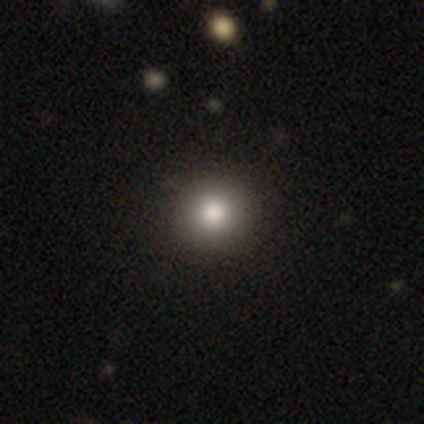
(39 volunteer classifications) Smooth or featured? 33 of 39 (85%) said smooth. How rounded? 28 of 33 (85%) said round. Merging? 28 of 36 (78%) said none.